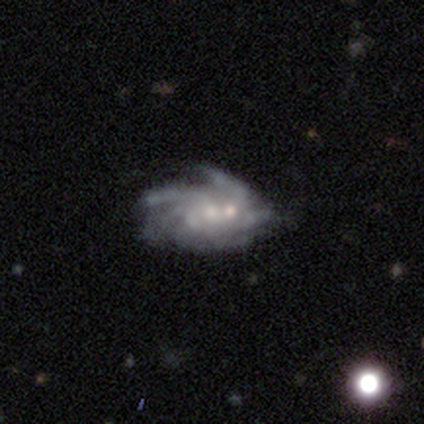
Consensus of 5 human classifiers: Smooth or featured?
  - featured or disk: 80% *
  - star or artifact: 20%
  - smooth: 0%
Edge-on disk?
  - no: 100% *
  - yes: 0%
Bar?
  - no: 75% *
  - weak: 25%
  - strong: 0%
Spiral arms?
  - yes: 100% *
  - no: 0%
Spiral winding?
  - loose: 50% *
  - tight: 25%
  - medium: 25%
Spiral arm count?
  - 3: 50% * (tied)
  - can't tell: 50% * (tied)
  - 1: 0%
  - 2: 0%
  - 4: 0%
  - more than 4: 0%
Bulge size?
  - small: 50% *
  - large: 25%
  - moderate: 25%
  - dominant: 0%
  - none: 0%
Merging?
  - none: 25% * (tied)
  - minor disturbance: 25% * (tied)
  - major disturbance: 25% * (tied)
  - merger: 25% * (tied)